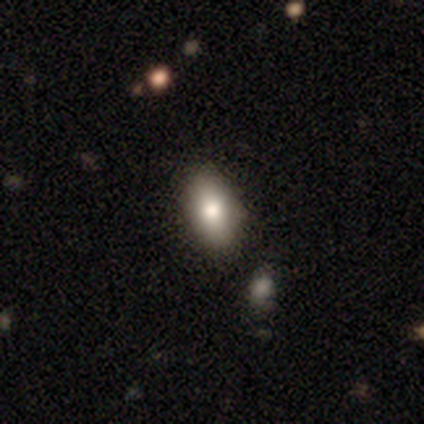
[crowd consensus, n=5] Q: Smooth or featured?
A: smooth (100%)
Q: How rounded?
A: in between (100%)
Q: Merging?
A: none (100%)